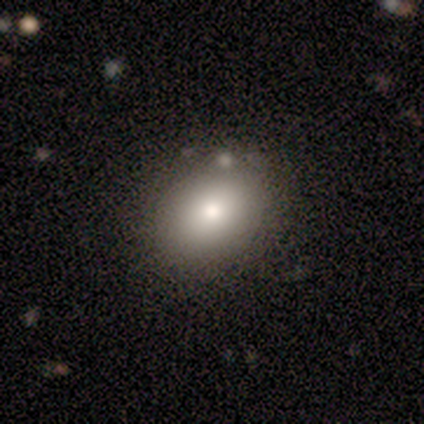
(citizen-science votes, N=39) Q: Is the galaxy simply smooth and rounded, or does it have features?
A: smooth — 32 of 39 (82%).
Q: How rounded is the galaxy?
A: round — 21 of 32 (66%).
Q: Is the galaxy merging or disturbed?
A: none — 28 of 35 (80%).